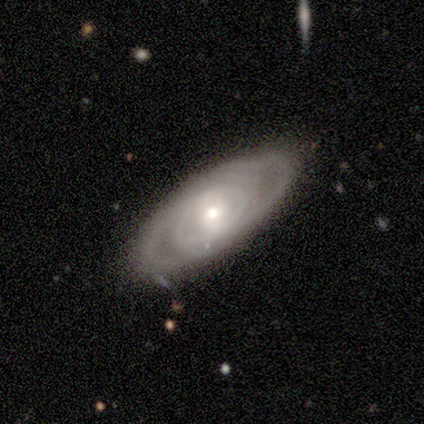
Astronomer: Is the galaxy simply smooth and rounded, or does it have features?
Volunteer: featured or disk — 80%.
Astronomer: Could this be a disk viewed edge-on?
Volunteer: no — 100%.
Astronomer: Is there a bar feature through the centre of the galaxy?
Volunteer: weak — 75%.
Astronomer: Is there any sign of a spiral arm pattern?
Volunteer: yes — 100%.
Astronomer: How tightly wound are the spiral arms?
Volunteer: tight — 100%.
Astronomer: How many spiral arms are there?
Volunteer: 4 — 50%.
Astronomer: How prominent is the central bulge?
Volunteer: moderate — 50%, tied with small at 50%.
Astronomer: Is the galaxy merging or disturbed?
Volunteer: none — 100%.